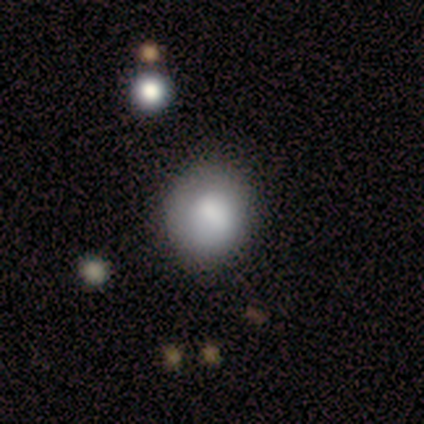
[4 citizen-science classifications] Smooth or featured: smooth — 100%
How rounded: round — 100%
Merging: none — 100%